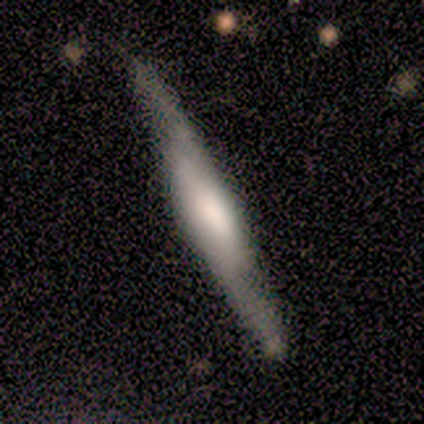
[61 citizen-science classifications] smooth-or-featured: featured or disk: 66% | smooth: 30% | star or artifact: 5%
  disk-edge-on: yes: 75% | no: 25%
    edge-on-bulge: rounded: 47% | boxy: 40% | none: 13%
  merging: none: 78% | minor disturbance: 19% | major disturbance: 2% | merger: 2%